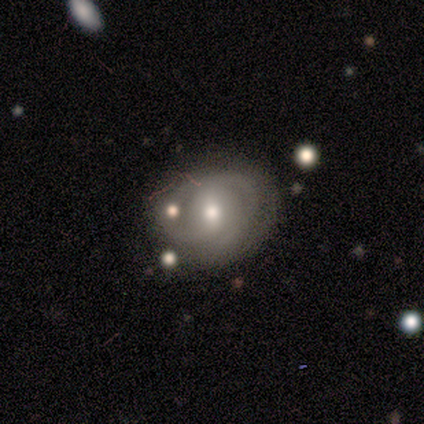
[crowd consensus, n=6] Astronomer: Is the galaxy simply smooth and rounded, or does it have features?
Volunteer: featured or disk — 67%.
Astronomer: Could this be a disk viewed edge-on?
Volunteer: no — 100%.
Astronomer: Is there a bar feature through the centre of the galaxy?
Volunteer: weak — 50%, tied with no at 50%.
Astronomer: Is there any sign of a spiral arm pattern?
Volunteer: yes — 100%.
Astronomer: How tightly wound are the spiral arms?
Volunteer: tight — 100%.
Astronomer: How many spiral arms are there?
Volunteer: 2 — 50%.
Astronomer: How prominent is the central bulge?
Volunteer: small — 50%.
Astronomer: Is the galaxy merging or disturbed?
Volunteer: none — 67%.